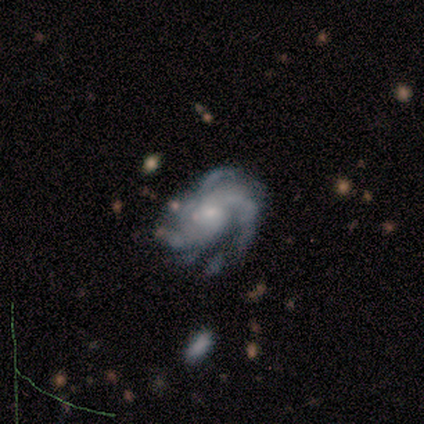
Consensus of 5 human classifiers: Smooth or featured? 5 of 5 (100%) said featured or disk. Edge-on disk? 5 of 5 (100%) said no. Bar? 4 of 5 (80%) said no. Spiral arms? 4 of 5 (80%) said yes. Spiral winding? 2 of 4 (50%) said tight. Spiral arm count? 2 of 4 (50%, tied with 4) said 3. Bulge size? 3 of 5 (60%) said small. Merging? 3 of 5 (60%) said none.